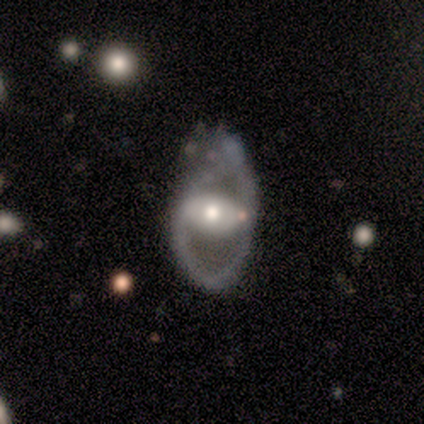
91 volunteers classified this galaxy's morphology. Overall: featured or disk (82%). Edge-on disk: no (97%). Bar: no (51%; strong 26%). Spiral arms: no (73%). Bulge size: moderate (77%). Merging: minor disturbance (38%; major disturbance 29%).